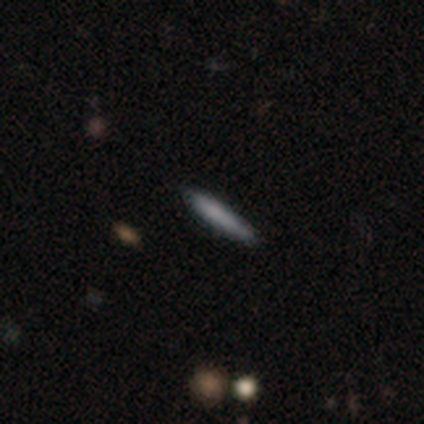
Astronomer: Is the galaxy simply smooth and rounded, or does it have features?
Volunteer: smooth — 70%.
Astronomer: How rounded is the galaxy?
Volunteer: cigar-shaped — 100%.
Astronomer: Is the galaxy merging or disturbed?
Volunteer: none — 62%.